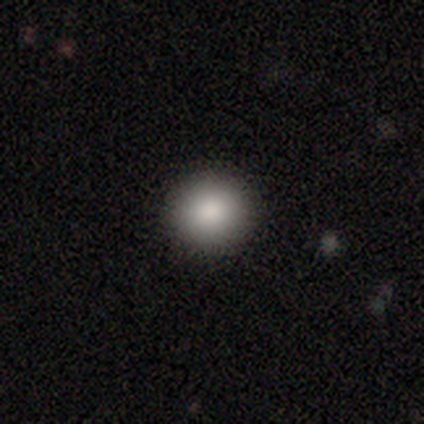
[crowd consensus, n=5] This is clearly a smooth galaxy (100%). How rounded: clearly round (100%). Merging: clearly none (100%).